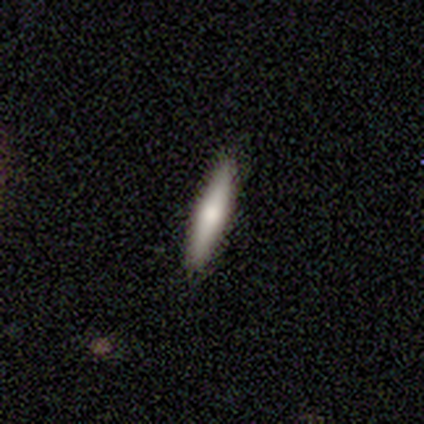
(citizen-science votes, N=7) Morphology: type=featured or disk (57%); edge-on=yes (75%); edge-on bulge=rounded (100%); merging=none (100%).